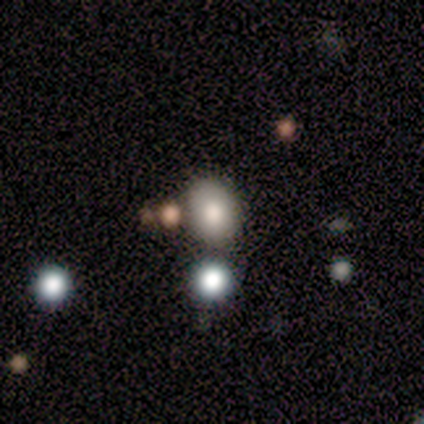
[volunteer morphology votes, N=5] Overall: smooth (80%). How rounded: in between (75%). Merging: none (60%; minor disturbance 20%).